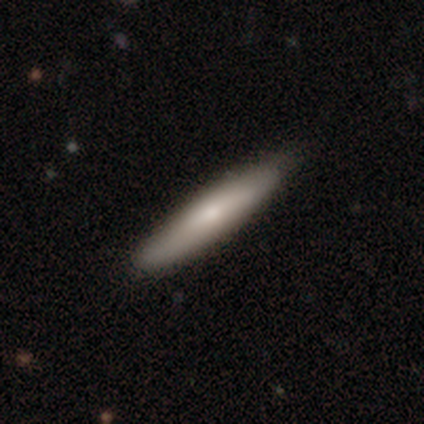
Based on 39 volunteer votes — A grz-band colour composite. It shows a smooth galaxy with no disk features (74%) that is cigar-shaped (97%). Merging: none (79%).